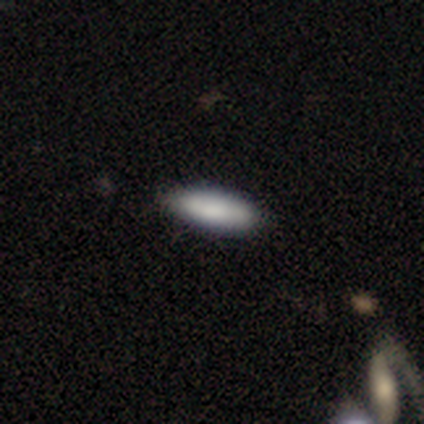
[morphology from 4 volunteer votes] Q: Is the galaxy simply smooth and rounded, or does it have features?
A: smooth — 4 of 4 (100%).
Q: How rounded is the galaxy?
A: in between — 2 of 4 (50%, tied with cigar-shaped).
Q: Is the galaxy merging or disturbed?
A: none — 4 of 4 (100%).